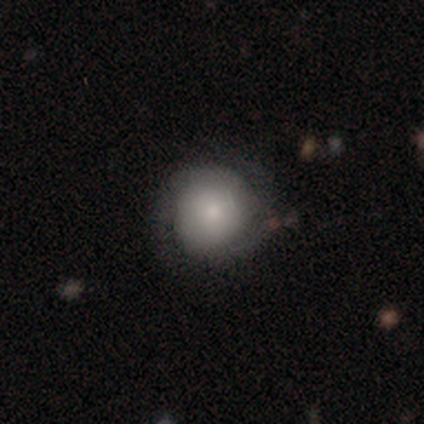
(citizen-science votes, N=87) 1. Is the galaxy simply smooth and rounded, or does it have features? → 48% smooth, 40% featured or disk, 11% star or artifact.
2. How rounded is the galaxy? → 88% round, 12% in between, 0% cigar-shaped.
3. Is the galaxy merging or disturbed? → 66% none, 29% minor disturbance, 5% major disturbance, 0% merger.